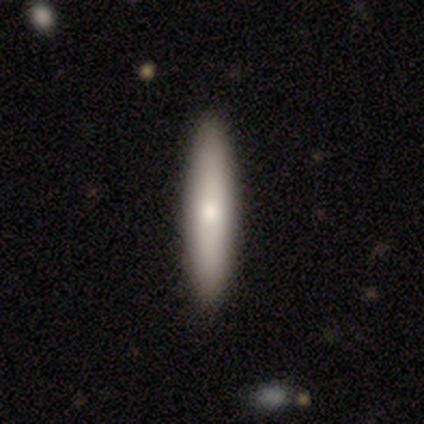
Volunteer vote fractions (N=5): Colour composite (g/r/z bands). It shows a smooth galaxy with no disk features (60%) that is cigar-shaped (100%). Merging: none (100%).